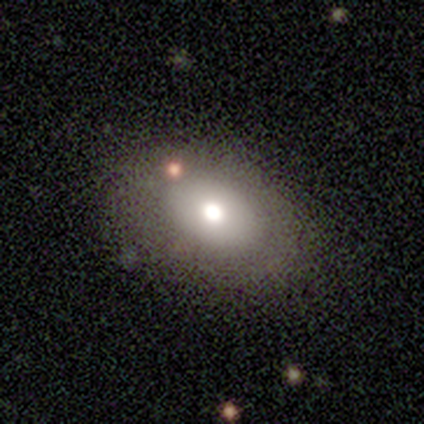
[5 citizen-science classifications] smooth-or-featured: smooth: 60% | featured or disk: 40% | star or artifact: 0%
  how-rounded: in between: 100% | round: 0% | cigar-shaped: 0%
  merging: none: 100% | minor disturbance: 0% | major disturbance: 0% | merger: 0%